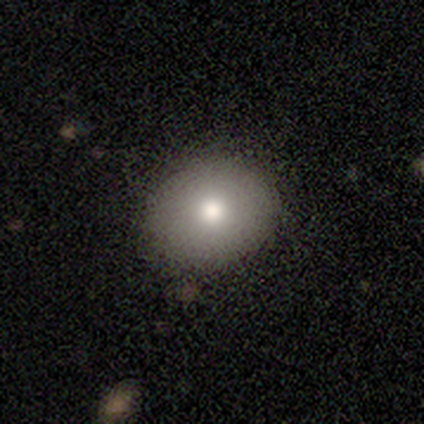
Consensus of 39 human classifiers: Volunteers were most divided on "how rounded": round: 55%, in between: 45%, cigar-shaped: 0%. More confident: smooth or featured — smooth (79%); merging — none (78%).